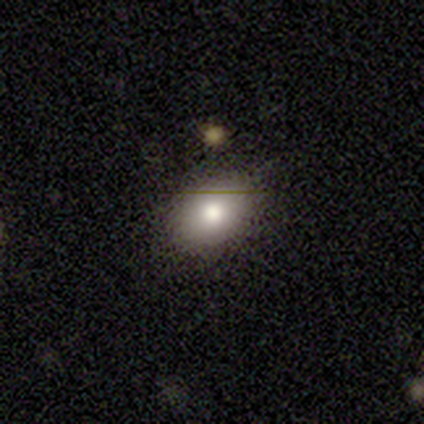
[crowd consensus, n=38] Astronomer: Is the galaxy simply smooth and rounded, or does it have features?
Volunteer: smooth — 79%.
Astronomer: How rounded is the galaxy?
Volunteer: in between — 83%.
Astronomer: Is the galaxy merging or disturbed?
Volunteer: none — 83%.